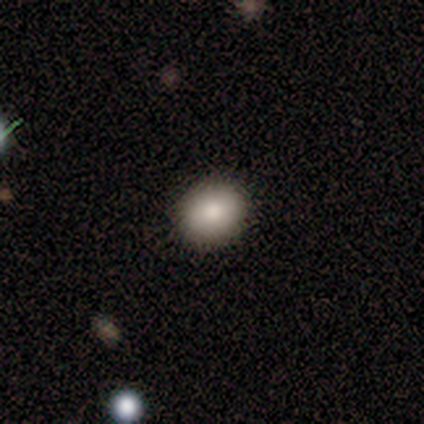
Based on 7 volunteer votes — Smooth or featured?
  - smooth: 86% *
  - featured or disk: 14%
  - star or artifact: 0%
How rounded?
  - round: 83% *
  - in between: 17%
  - cigar-shaped: 0%
Merging?
  - none: 100% *
  - minor disturbance: 0%
  - major disturbance: 0%
  - merger: 0%